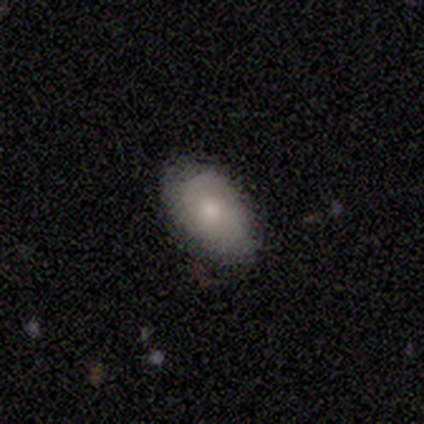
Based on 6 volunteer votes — This appears to be a smooth galaxy with no disk features (50%, tied with featured or disk) that is in between round and cigar-shaped (100%). Merging: none (100%).